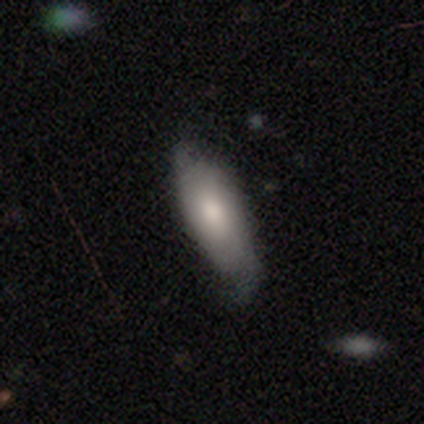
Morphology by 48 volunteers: smooth-or-featured: smooth: 75% | featured or disk: 23% | star or artifact: 2%
  how-rounded: in between: 67% | cigar-shaped: 33% | round: 0%
  merging: minor disturbance: 55% | none: 40% | major disturbance: 4% | merger: 0%